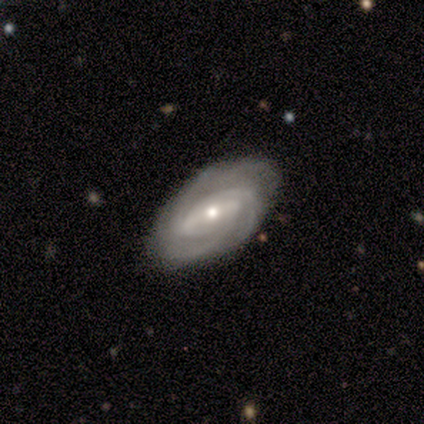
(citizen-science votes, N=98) A featured or disk galaxy (89%) with a strong bar (40%), 3 (46%) tight (71%) spiral arms (99%) and a moderate central bulge (53%). Merging: none (81%).